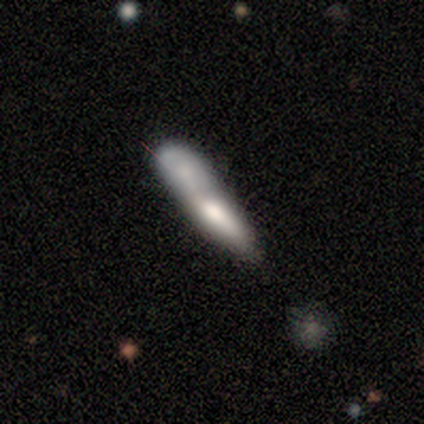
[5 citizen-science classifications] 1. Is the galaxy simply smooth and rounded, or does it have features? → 80% smooth, 20% featured or disk, 0% star or artifact.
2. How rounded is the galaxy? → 75% cigar-shaped, 25% in between, 0% round.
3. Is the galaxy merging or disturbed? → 40% merger, 20% none, 20% minor disturbance, 20% major disturbance.